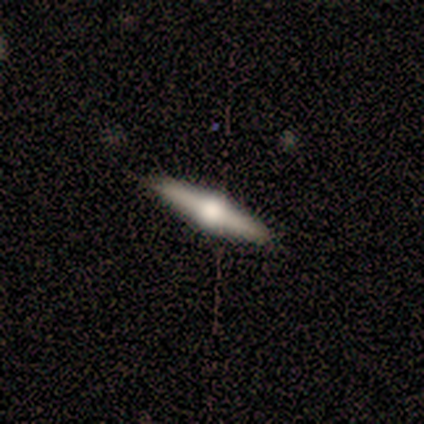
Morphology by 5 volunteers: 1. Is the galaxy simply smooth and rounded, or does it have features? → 60% featured or disk, 40% smooth, 0% star or artifact.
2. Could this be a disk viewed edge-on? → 100% yes, 0% no.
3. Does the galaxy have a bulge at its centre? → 100% rounded, 0% boxy, 0% none.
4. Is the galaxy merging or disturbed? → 100% none, 0% minor disturbance, 0% major disturbance, 0% merger.